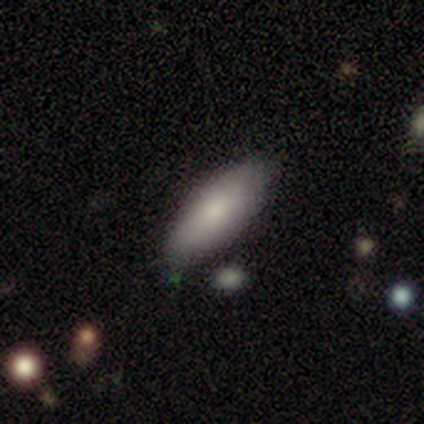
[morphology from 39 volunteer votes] A smooth galaxy with no disk features (77%) that is in between round and cigar-shaped (70%). Merging: none (84%).